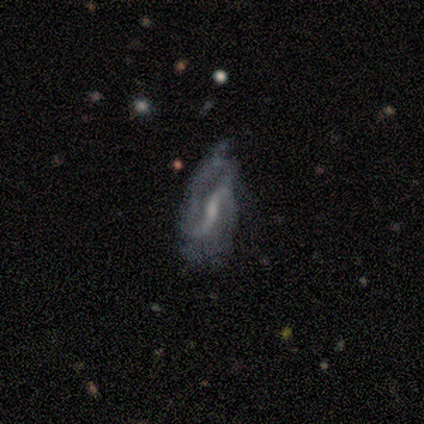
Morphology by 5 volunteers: smooth_or_featured: featured or disk (p=0.80) [alt: smooth p=0.20]
disk_edge_on: no (p=1.00)
bar: strong (p=1.00)
has_spiral_arms: yes (p=1.00)
spiral_winding: tight (p=0.75) [alt: medium p=0.25]
spiral_arm_count: 2 (p=0.50) [alt: more than 4 p=0.25]
bulge_size: small (p=0.75) [alt: moderate p=0.25]
merging: none (p=0.80) [alt: minor disturbance p=0.20]